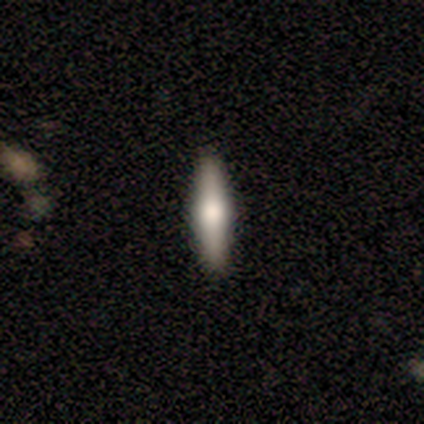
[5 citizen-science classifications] A featured or disk galaxy (80%) viewed edge-on (100%) with a rounded central bulge (100%). Merging: none (100%).